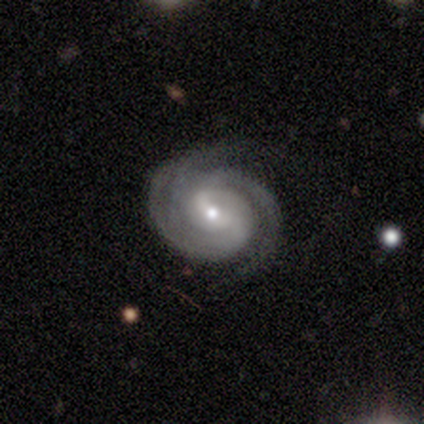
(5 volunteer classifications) smooth_or_featured: featured or disk (p=1.00)
disk_edge_on: no (p=1.00)
bar: weak (p=0.60) [alt: no p=0.40]
has_spiral_arms: yes (p=1.00)
spiral_winding: tight (p=0.60) [alt: medium p=0.20]
spiral_arm_count: 3 (p=0.60) [alt: 2 p=0.40]
bulge_size: small (p=0.60) [alt: moderate p=0.40]
merging: none (p=1.00)